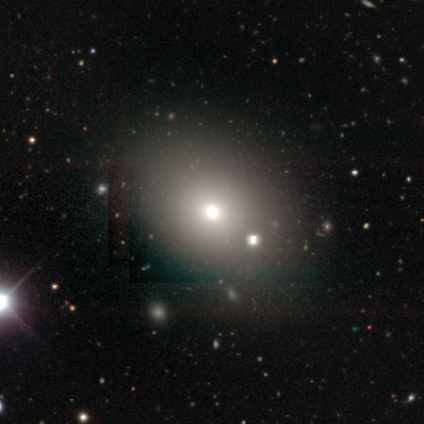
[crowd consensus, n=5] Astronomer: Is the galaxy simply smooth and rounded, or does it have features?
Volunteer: smooth — 40%, tied with star or artifact at 40%.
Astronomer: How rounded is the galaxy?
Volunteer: round — 100%.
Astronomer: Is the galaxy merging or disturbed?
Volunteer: minor disturbance — 67%.